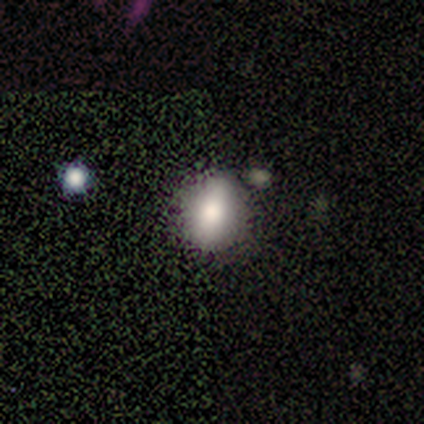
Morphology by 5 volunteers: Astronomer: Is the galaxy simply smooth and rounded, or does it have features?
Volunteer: featured or disk — 60% (runner-up: star or artifact, 40%).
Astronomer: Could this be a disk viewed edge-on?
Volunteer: no — 67%.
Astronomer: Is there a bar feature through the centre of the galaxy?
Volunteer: strong — 50%, tied with weak at 50%.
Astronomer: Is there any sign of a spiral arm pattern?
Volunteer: yes — 50%, tied with no at 50%.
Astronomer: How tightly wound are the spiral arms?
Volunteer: medium — 100%.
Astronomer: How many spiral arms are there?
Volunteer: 2 — 100%.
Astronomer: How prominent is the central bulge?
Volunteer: moderate — 50%, tied with small at 50%.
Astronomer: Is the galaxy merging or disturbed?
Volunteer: minor disturbance — 67%.